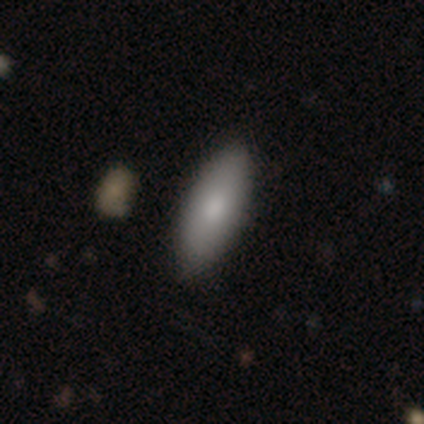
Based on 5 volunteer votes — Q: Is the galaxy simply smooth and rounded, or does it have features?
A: smooth — 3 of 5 (60%).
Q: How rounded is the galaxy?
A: in between — 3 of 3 (100%).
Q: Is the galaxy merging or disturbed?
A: none — 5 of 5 (100%).